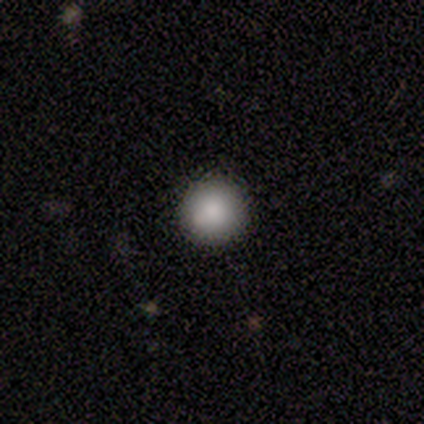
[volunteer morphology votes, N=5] A smooth galaxy with no disk features (80%) that is round (100%). Merging: none (100%).